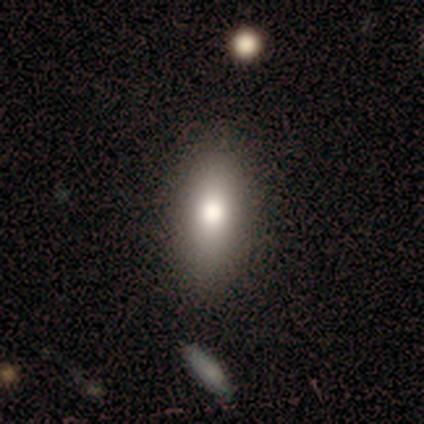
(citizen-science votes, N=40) Smooth or featured?
  - smooth: 70% *
  - star or artifact: 20%
  - featured or disk: 10%
How rounded?
  - in between: 79% *
  - cigar-shaped: 21%
  - round: 0%
Merging?
  - none: 94% *
  - minor disturbance: 6%
  - major disturbance: 0%
  - merger: 0%